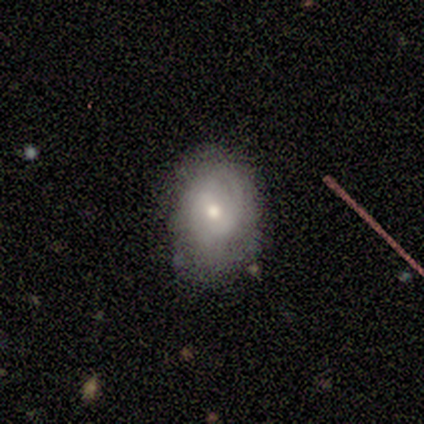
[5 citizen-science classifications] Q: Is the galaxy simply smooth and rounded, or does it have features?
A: featured or disk — 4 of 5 (80%).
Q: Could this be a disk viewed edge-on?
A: no — 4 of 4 (100%).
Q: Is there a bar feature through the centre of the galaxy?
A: no — 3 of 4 (75%).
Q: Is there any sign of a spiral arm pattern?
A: yes — 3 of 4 (75%).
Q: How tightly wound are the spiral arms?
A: tight — 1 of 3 (33%, tied with medium and loose).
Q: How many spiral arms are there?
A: can't tell — 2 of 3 (67%).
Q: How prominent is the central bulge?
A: moderate — 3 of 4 (75%).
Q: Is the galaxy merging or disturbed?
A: none — 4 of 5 (80%).